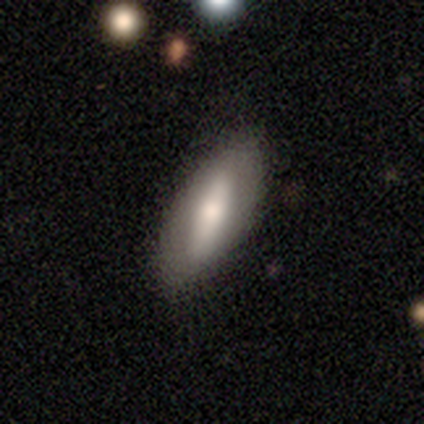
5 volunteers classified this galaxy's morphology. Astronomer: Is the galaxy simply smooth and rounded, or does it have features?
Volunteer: smooth — 80%.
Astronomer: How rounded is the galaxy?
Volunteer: in between — 75%.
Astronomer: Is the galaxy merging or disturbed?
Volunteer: none — 100%.